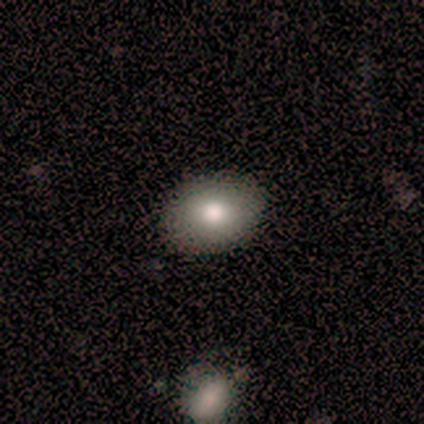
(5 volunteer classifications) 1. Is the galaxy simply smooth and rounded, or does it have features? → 60% smooth, 40% star or artifact, 0% featured or disk.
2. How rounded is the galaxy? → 100% in between, 0% round, 0% cigar-shaped.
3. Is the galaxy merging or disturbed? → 67% none, 33% minor disturbance, 0% major disturbance, 0% merger.